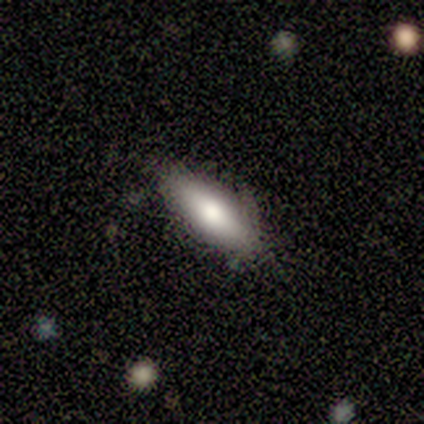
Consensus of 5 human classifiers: Smooth or featured?
  - smooth: 100% *
  - featured or disk: 0%
  - star or artifact: 0%
How rounded?
  - in between: 100% *
  - round: 0%
  - cigar-shaped: 0%
Merging?
  - none: 100% *
  - minor disturbance: 0%
  - major disturbance: 0%
  - merger: 0%